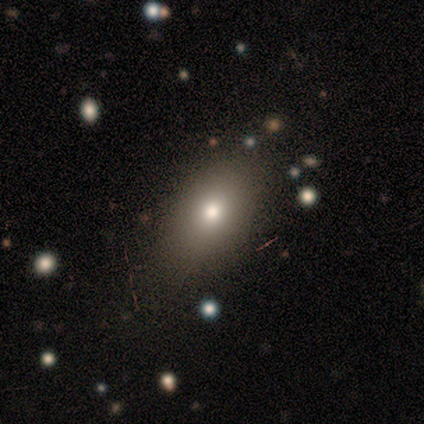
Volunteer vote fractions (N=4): Morphology: type=featured or disk (50%); edge-on=no (100%); bar=no (100%); spiral arms=no (100%); bulge=moderate (100%); merging=none (100%).